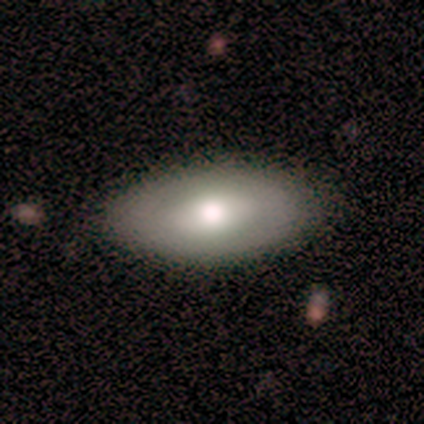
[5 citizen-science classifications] Morphology: type=smooth (60%); roundness=in between (100%); merging=none (40%, tied with minor disturbance).